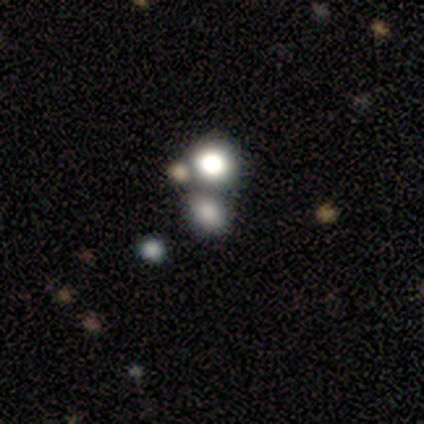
This appears to be a smooth galaxy with no disk features (50%) that is round (53%). Merging: none (62%).